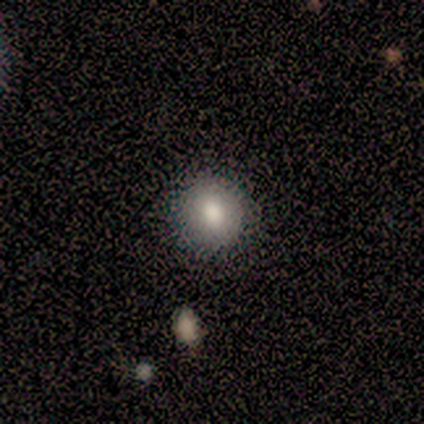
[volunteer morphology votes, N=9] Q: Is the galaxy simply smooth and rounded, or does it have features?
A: smooth — 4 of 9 (44%, tied with featured or disk).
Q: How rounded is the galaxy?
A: round — 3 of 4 (75%).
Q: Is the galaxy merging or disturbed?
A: none — 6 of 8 (75%).